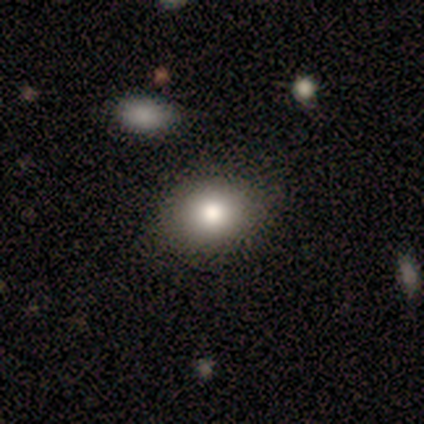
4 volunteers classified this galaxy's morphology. smooth-or-featured: smooth: 75% | featured or disk: 25% | star or artifact: 0%
  how-rounded: in between: 67% | round: 33% | cigar-shaped: 0%
  merging: none: 75% | minor disturbance: 25% | major disturbance: 0% | merger: 0%